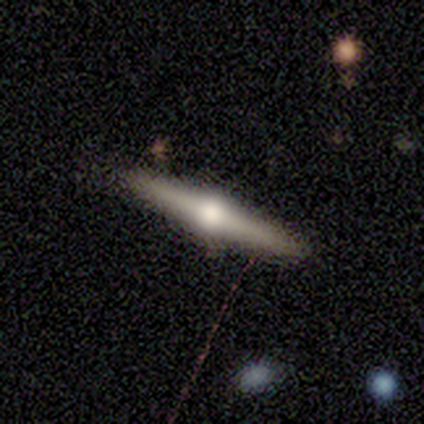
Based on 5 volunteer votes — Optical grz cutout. It shows a featured or disk galaxy (60%) viewed edge-on (67%) with a rounded central bulge (100%). Merging: none (80%).